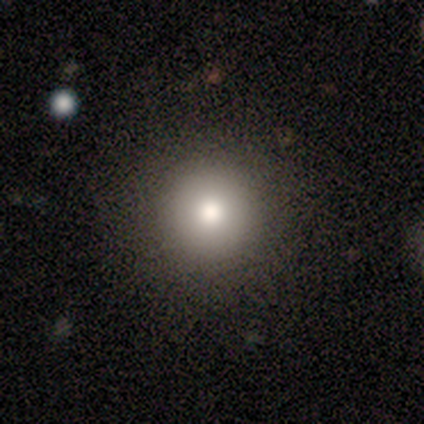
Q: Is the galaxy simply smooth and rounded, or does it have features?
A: smooth — 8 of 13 (62%).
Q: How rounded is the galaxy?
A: round — 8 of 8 (100%).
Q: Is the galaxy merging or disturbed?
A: none — 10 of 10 (100%).